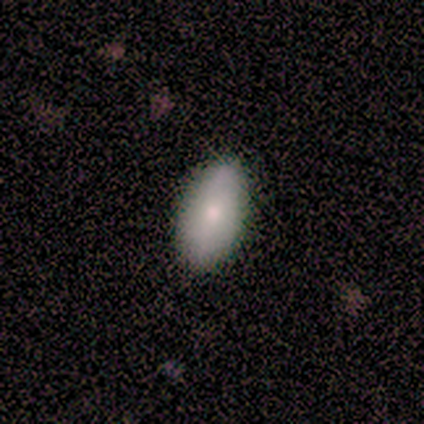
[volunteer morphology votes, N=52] A smooth galaxy with no disk features (77%) that is in between round and cigar-shaped (98%).

Vote fractions:
- Smooth or featured? smooth: 77% / featured or disk: 23% / star or artifact: 0%
- How rounded? in between: 98% / cigar-shaped: 2% / round: 0%
- Merging? none: 90% / minor disturbance: 8% / major disturbance: 2% / merger: 0%